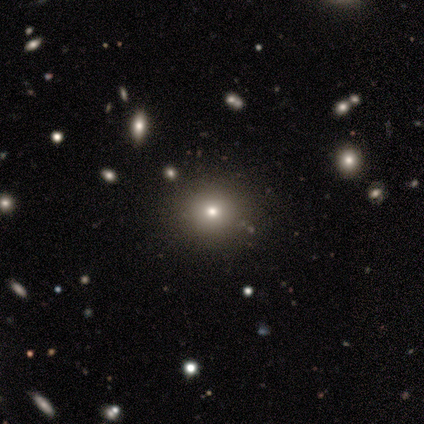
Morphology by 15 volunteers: A smooth galaxy with no disk features (87%) that is round (92%).

Vote fractions:
- Smooth or featured? smooth: 87% / featured or disk: 7% / star or artifact: 7%
- How rounded? round: 92% / in between: 8% / cigar-shaped: 0%
- Merging? none: 79% / minor disturbance: 14% / merger: 7% / major disturbance: 0%